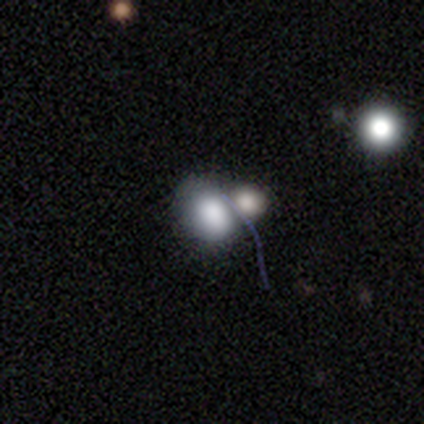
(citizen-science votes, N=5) A smooth galaxy with no disk features (60%) that is round (67%).

Vote fractions:
- Smooth or featured? smooth: 60% / featured or disk: 40% / star or artifact: 0%
- How rounded? round: 67% / in between: 33% / cigar-shaped: 0%
- Merging? merger: 80% / major disturbance: 20% / none: 0% / minor disturbance: 0%